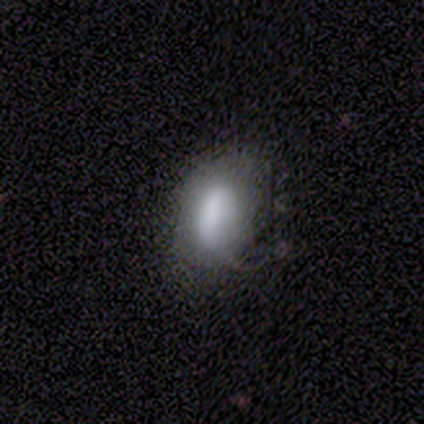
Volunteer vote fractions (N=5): Morphology: type=smooth (60%); roundness=in between (100%); merging=none (60%).